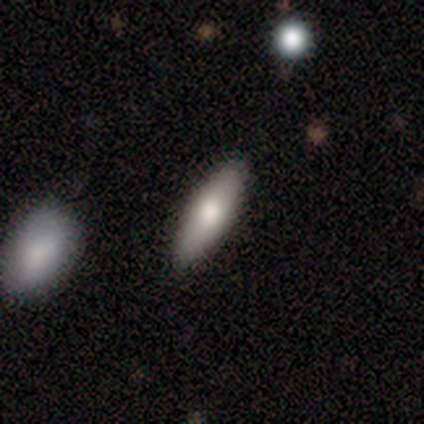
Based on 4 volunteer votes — Overall: featured or disk (50%; smooth 25%). Edge-on disk: yes (50%, tied with no). Edge-on bulge: none (100%). Merging: none (67%; major disturbance 33%).